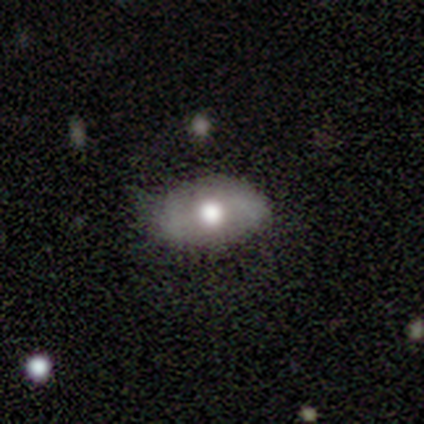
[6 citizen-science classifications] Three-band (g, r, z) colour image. It shows a smooth galaxy with no disk features (83%) that is in between round and cigar-shaped (100%). Merging: none (67%).